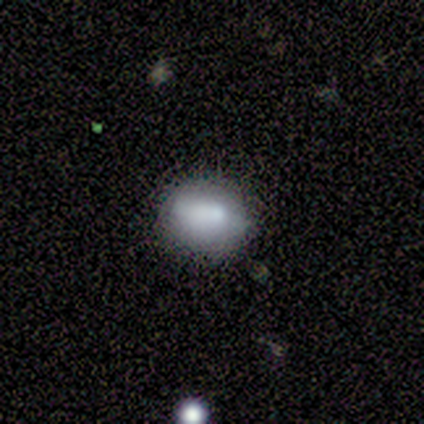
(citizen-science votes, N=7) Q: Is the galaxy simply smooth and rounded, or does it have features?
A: featured or disk — 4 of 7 (57%).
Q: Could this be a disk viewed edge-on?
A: no — 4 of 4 (100%).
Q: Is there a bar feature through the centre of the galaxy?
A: no — 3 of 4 (75%).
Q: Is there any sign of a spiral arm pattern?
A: no — 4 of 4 (100%).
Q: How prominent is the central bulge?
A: moderate — 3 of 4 (75%).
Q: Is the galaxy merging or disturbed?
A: minor disturbance — 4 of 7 (57%).